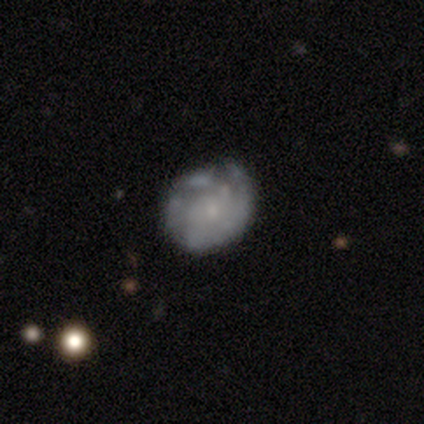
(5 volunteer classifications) A smooth galaxy with no disk features (40%, tied with featured or disk) that is round (100%). Merging: minor disturbance (75%).